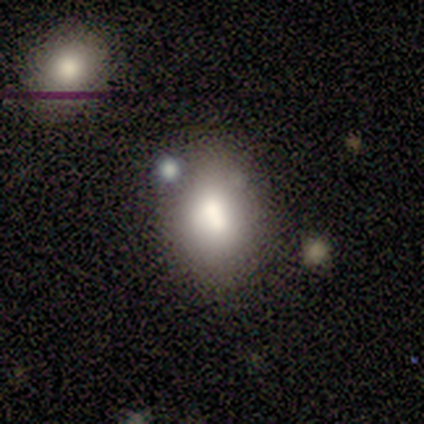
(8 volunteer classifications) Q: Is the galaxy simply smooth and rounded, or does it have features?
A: smooth — 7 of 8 (88%).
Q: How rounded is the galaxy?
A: in between — 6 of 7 (86%).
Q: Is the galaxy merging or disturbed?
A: none — 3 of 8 (38%, tied with merger).